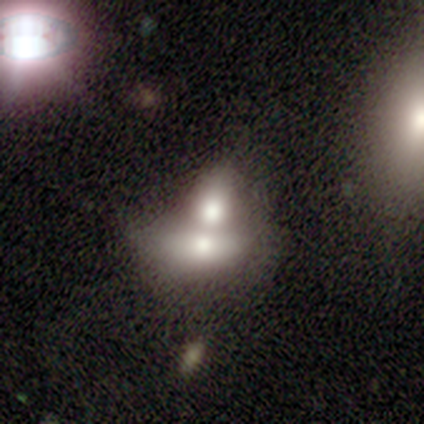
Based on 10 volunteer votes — A smooth galaxy with no disk features (50%) that is in between round and cigar-shaped (100%).

Vote fractions:
- Smooth or featured? smooth: 50% / featured or disk: 40% / star or artifact: 10%
- How rounded? in between: 100% / round: 0% / cigar-shaped: 0%
- Merging? merger: 100% / none: 0% / minor disturbance: 0% / major disturbance: 0%